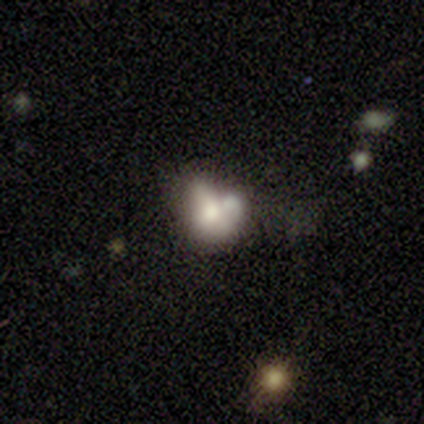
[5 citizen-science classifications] This is clearly a smooth galaxy (80%). How rounded: likely in between (75%). Merging: clearly minor disturbance (80%).